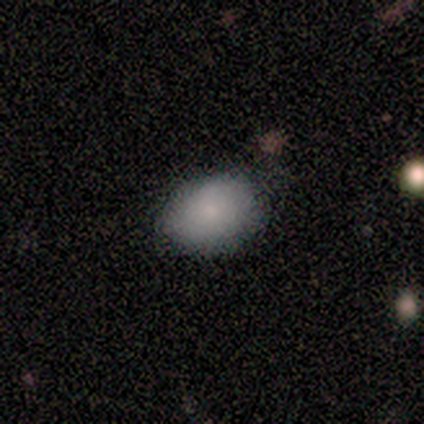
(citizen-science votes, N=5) Q: Smooth or featured?
A: smooth (80%); runner-up: star or artifact (20%)
Q: How rounded?
A: round (50%); tied with: in between (50%)
Q: Merging?
A: none (100%)